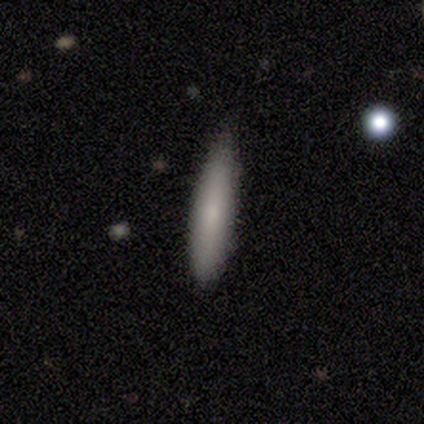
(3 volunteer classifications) Smooth or featured? 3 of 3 (100%) said smooth. How rounded? 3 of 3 (100%) said cigar-shaped. Merging? 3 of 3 (100%) said none.